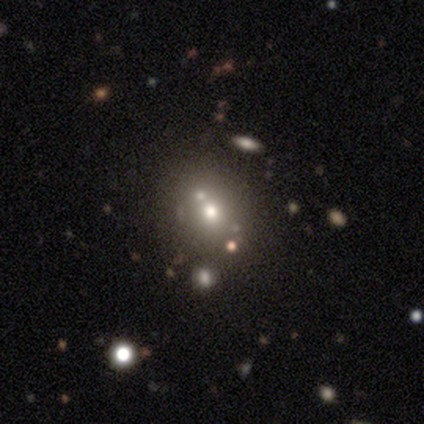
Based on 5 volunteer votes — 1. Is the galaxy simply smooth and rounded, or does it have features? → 60% smooth, 20% featured or disk, 20% star or artifact.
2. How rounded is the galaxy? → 67% in between, 33% round, 0% cigar-shaped.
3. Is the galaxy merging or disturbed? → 75% none, 25% merger, 0% minor disturbance, 0% major disturbance.